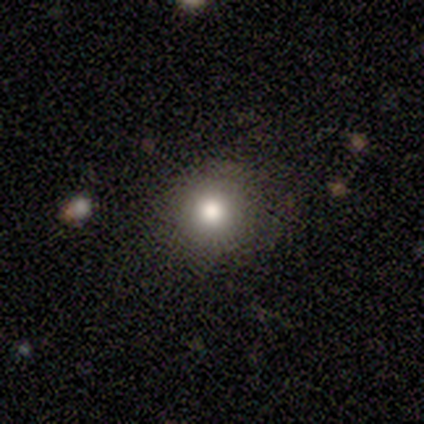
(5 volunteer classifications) Smooth or featured?
  - smooth: 80% *
  - star or artifact: 20%
  - featured or disk: 0%
How rounded?
  - round: 100% *
  - in between: 0%
  - cigar-shaped: 0%
Merging?
  - none: 100% *
  - minor disturbance: 0%
  - major disturbance: 0%
  - merger: 0%